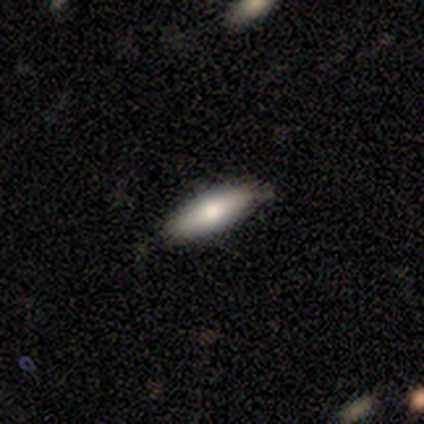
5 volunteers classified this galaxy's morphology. Smooth or featured?
  - smooth: 80% *
  - featured or disk: 20%
  - star or artifact: 0%
How rounded?
  - in between: 50% * (tied)
  - cigar-shaped: 50% * (tied)
  - round: 0%
Merging?
  - none: 100% *
  - minor disturbance: 0%
  - major disturbance: 0%
  - merger: 0%